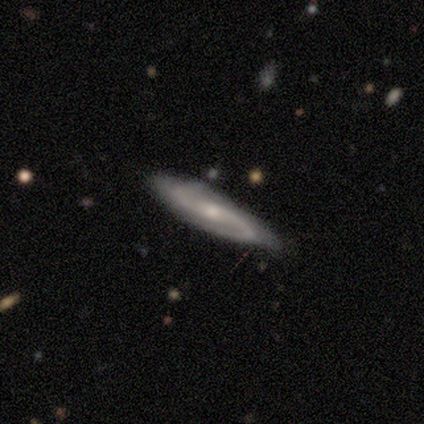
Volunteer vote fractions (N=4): Smooth or featured? featured or disk (100%)
Edge-on disk? no (75%)
Bar? no (100%)
Spiral arms? yes (100%)
Spiral winding? tight (67%)
Spiral arm count? 2 (67%)
Bulge size? small (100%)
Merging? none (100%)